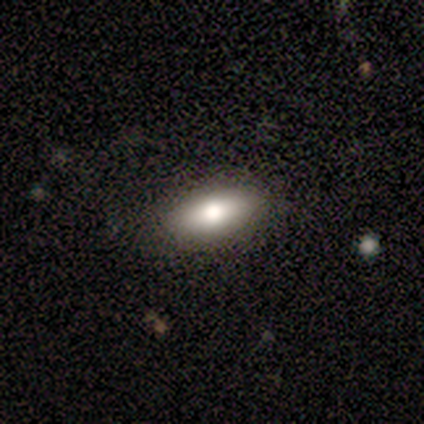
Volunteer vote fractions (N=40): Smooth or featured? smooth (70%)
How rounded? in between (82%)
Merging? none (89%)